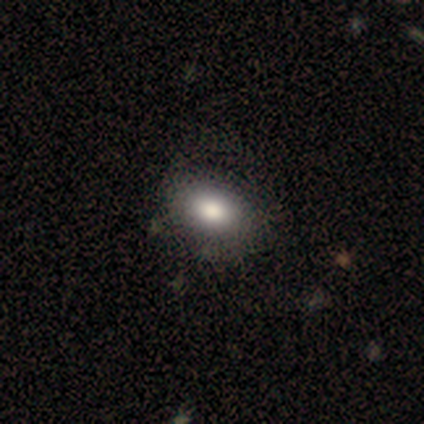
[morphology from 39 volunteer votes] This is clearly a smooth galaxy (82%). How rounded: likely in between (78%). Merging: likely none (77%).